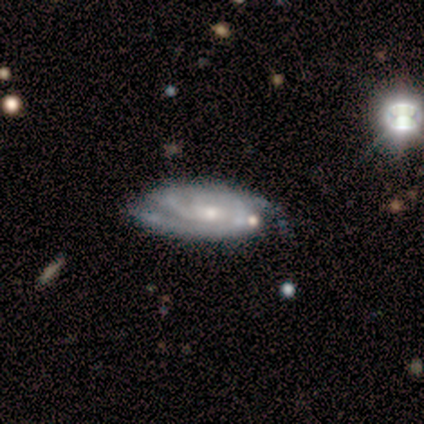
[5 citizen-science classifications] smooth-or-featured: featured or disk: 80% | star or artifact: 20% | smooth: 0%
  disk-edge-on: no: 100% | yes: 0%
    bar: no: 75% | weak: 25% | strong: 0%
    has-spiral-arms: yes: 100% | no: 0%
      spiral-winding: tight: 50% (tied) | medium: 50% (tied) | loose: 0%
      spiral-arm-count: 2: 50% | 3: 25% | can't tell: 25% | 1: 0% | 4: 0% | more than 4: 0%
    bulge-size: moderate: 75% | small: 25% | dominant: 0% | large: 0% | none: 0%
  merging: minor disturbance: 75% | none: 25% | major disturbance: 0% | merger: 0%